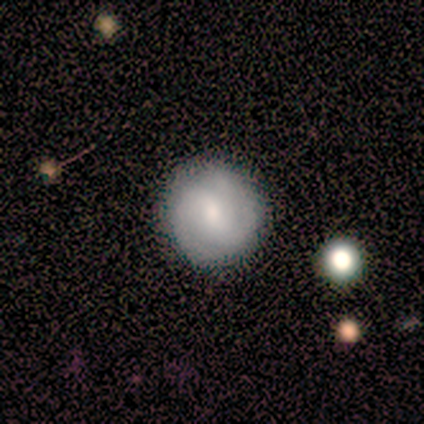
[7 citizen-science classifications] Smooth or featured?
  - featured or disk: 57% *
  - smooth: 43%
  - star or artifact: 0%
Edge-on disk?
  - no: 100% *
  - yes: 0%
Bar?
  - weak: 50% *
  - strong: 25%
  - no: 25%
Spiral arms?
  - yes: 100% *
  - no: 0%
Spiral winding?
  - tight: 50% * (tied)
  - medium: 50% * (tied)
  - loose: 0%
Spiral arm count?
  - 2: 75% *
  - 3: 25%
  - 1: 0%
  - 4: 0%
  - more than 4: 0%
  - can't tell: 0%
Bulge size?
  - moderate: 50% * (tied)
  - small: 50% * (tied)
  - dominant: 0%
  - large: 0%
  - none: 0%
Merging?
  - none: 86% *
  - merger: 14%
  - minor disturbance: 0%
  - major disturbance: 0%